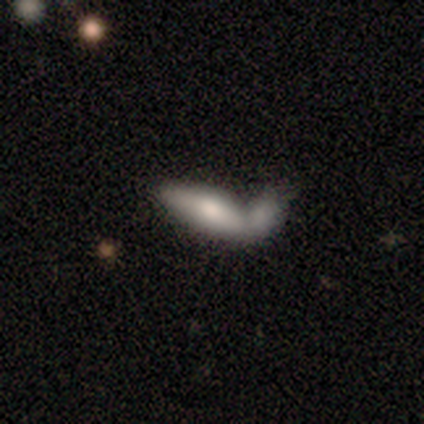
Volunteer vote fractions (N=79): Smooth or featured?
  - smooth: 77% *
  - featured or disk: 20%
  - star or artifact: 3%
How rounded?
  - in between: 80% *
  - cigar-shaped: 20%
  - round: 0%
Merging?
  - merger: 75% *
  - minor disturbance: 4%
  - major disturbance: 4%
  - none: 3%